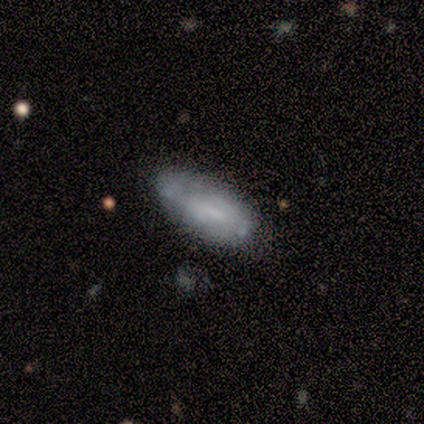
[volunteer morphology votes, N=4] Smooth or featured? 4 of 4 (100%) said smooth. How rounded? 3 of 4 (75%) said in between. Merging? 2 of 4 (50%, tied with minor disturbance) said none.